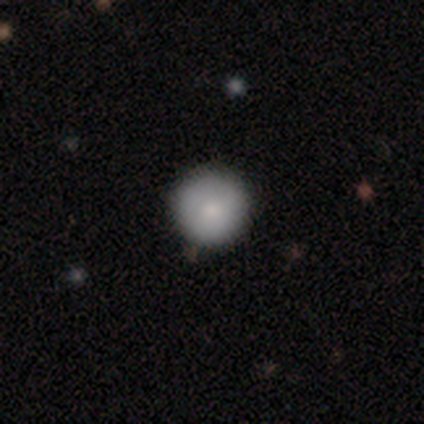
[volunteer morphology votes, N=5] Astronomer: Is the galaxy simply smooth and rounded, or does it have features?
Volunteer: smooth — 80%.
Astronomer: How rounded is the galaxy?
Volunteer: round — 100%.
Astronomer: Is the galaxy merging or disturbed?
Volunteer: none — 100%.